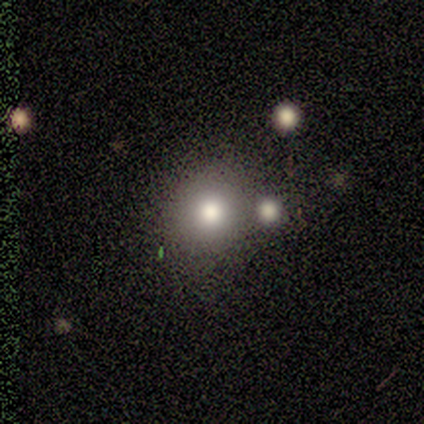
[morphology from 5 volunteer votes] A smooth galaxy with no disk features (80%) that is round (100%). Merging: merger (50%).